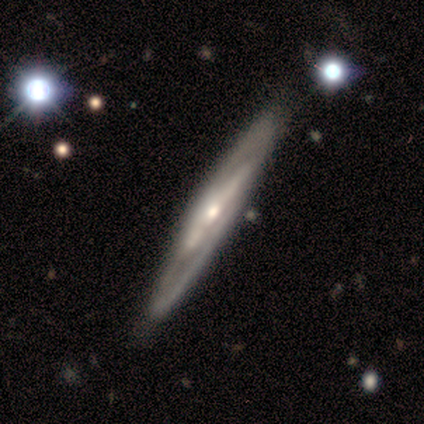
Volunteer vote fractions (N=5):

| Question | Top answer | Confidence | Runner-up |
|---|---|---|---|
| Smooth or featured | featured or disk | 80% | star or artifact (20%) |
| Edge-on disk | yes | 50% | tied: no (50%) |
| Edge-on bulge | none | 100% | — |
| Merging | none | 75% | merger (25%) |